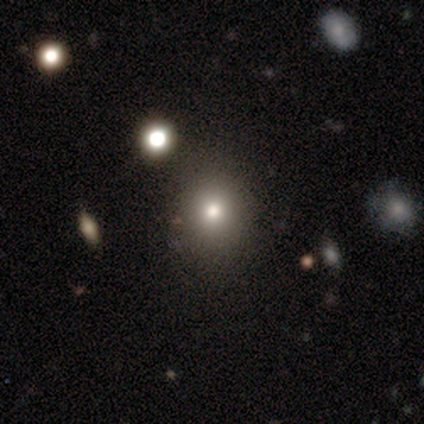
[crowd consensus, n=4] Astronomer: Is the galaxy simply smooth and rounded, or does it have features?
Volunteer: smooth — 50%.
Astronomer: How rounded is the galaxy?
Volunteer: round — 100%.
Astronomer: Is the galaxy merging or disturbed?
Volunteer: none — 67%.